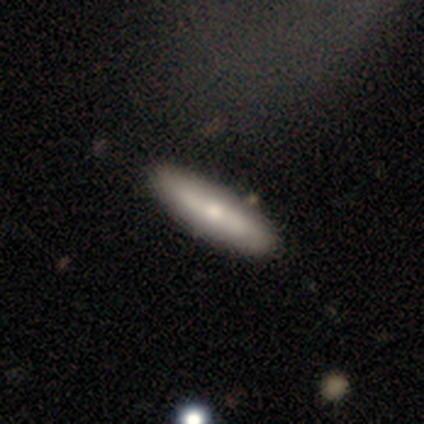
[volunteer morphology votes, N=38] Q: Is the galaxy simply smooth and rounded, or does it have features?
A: featured or disk — 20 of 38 (53%).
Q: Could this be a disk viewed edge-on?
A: yes — 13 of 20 (65%).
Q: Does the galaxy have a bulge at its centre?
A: rounded — 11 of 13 (85%).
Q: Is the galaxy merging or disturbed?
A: none — 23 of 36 (64%).